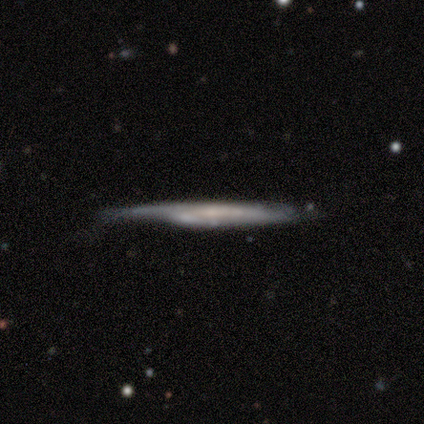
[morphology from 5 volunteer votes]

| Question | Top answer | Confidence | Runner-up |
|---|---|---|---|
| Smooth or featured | featured or disk | 80% | smooth (20%) |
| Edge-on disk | yes | 100% | — |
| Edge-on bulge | none | 75% | boxy (25%) |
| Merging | none | 80% | minor disturbance (20%) |